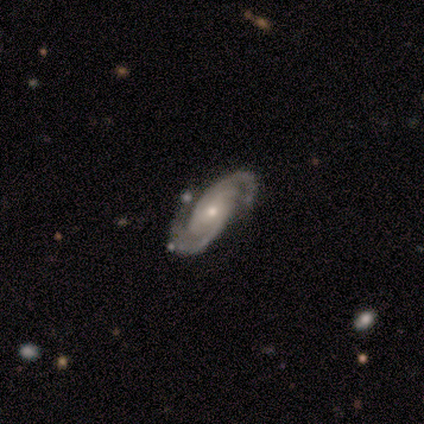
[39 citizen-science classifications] Smooth or featured: featured or disk — 97% (smooth — 3%)
Edge-on disk: no — 100%
Bar: no — 63% (strong — 18%)
Spiral arms: yes — 100%
Spiral winding: tight — 61% (medium — 34%)
Spiral arm count: 2 — 84% (3 — 11%)
Bulge size: small — 55% (moderate — 42%)
Merging: none — 62% (major disturbance — 10%)